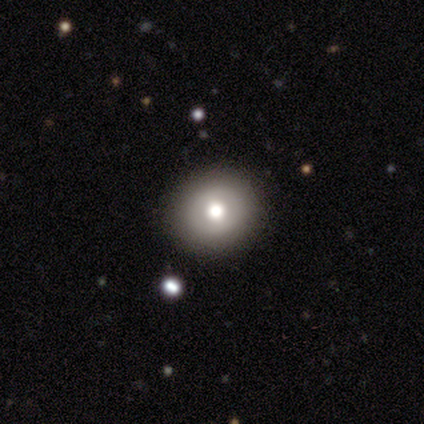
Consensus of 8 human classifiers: This is likely a smooth galaxy (62%). How rounded: clearly round (80%). Merging: likely none (75%).